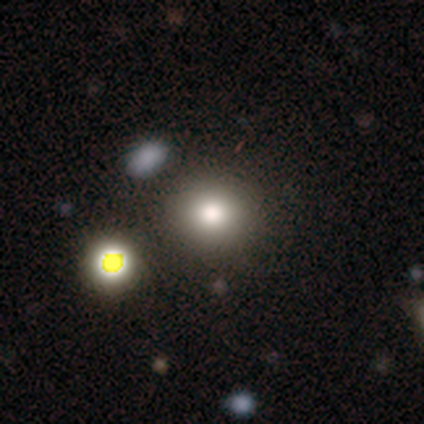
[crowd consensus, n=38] smooth_or_featured: smooth (p=0.53) [alt: star or artifact p=0.37]
how_rounded: round (p=0.90) [alt: in between p=0.10]
merging: none (p=0.75) [alt: minor disturbance p=0.12]